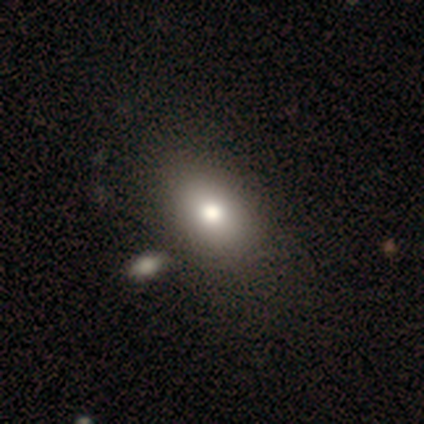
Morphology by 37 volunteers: smooth 84%, featured or disk 14%, star or artifact 3%. Down the decision tree: how rounded — in between (77%); merging — none (39%).